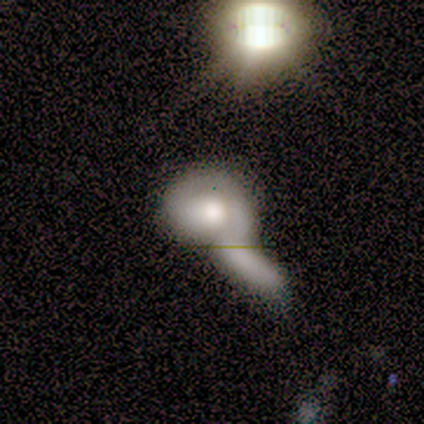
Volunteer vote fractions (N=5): Smooth or featured?
  - smooth: 40% * (tied)
  - featured or disk: 40% * (tied)
  - star or artifact: 20%
How rounded?
  - round: 100% *
  - in between: 0%
  - cigar-shaped: 0%
Merging?
  - merger: 50% *
  - none: 25%
  - major disturbance: 25%
  - minor disturbance: 0%